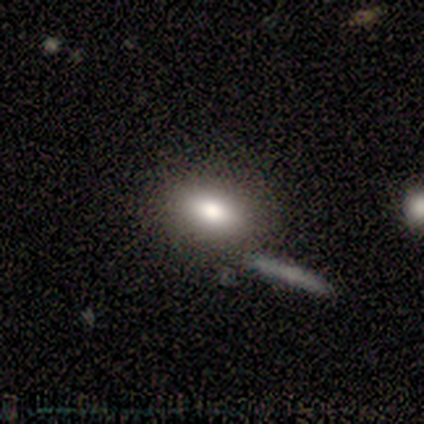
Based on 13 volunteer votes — Smooth or featured?
  - smooth: 62% *
  - featured or disk: 23%
  - star or artifact: 15%
How rounded?
  - in between: 100% *
  - round: 0%
  - cigar-shaped: 0%
Merging?
  - none: 64% *
  - minor disturbance: 27%
  - merger: 9%
  - major disturbance: 0%